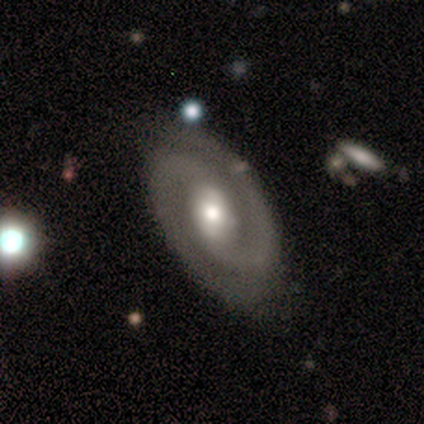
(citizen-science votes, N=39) Smooth or featured? 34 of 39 (87%) said featured or disk. Edge-on disk? 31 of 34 (91%) said no. Bar? 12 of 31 (39%, tied with no) said weak. Spiral arms? 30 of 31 (97%) said yes. Spiral winding? 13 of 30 (43%) said tight. Spiral arm count? 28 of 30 (93%) said 2. Bulge size? 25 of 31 (81%) said moderate. Merging? 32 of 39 (82%) said none.